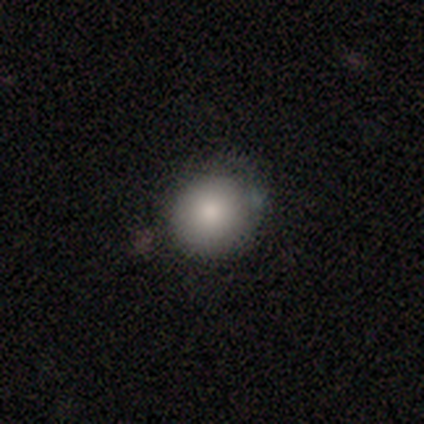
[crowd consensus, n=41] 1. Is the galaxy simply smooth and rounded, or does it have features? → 90% smooth, 5% featured or disk, 5% star or artifact.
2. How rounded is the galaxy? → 89% round, 8% in between, 3% cigar-shaped.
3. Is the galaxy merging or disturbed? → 77% none, 21% minor disturbance, 3% merger, 0% major disturbance.